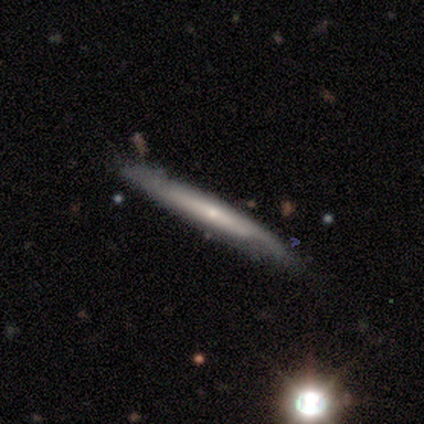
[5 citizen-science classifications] Volunteers were most divided on "smooth or featured": featured or disk: 60%, smooth: 40%, star or artifact: 0%. More confident: edge-on disk — yes (100%); merging — none (80%); edge-on bulge — rounded (67%).